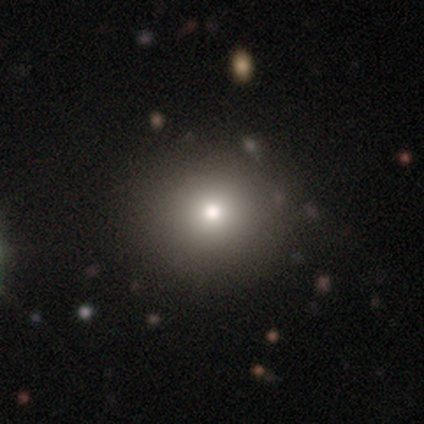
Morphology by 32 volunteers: smooth-or-featured: smooth: 81% | star or artifact: 16% | featured or disk: 3%
  how-rounded: round: 100% | in between: 0% | cigar-shaped: 0%
  merging: none: 96% | merger: 4% | minor disturbance: 0% | major disturbance: 0%